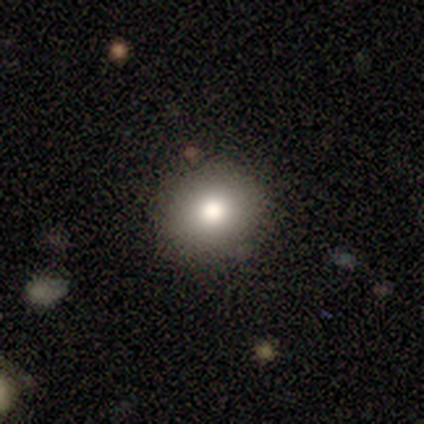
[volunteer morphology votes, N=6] type=smooth (100%); roundness=round (100%); merging=none (83%).